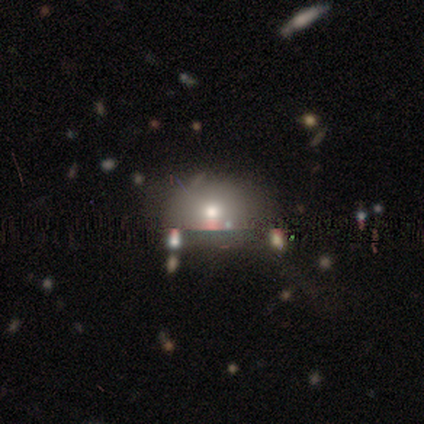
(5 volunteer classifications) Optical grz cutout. It shows a smooth galaxy with no disk features (80%) that is round (50%, tied with in between). Merging: none (100%).